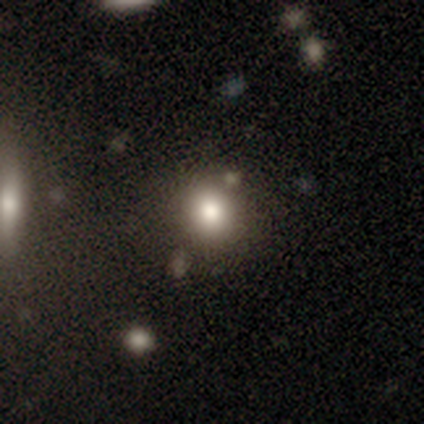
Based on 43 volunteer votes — A smooth galaxy with no disk features (72%) that is round (87%).

Vote fractions:
- Smooth or featured? smooth: 72% / featured or disk: 19% / star or artifact: 9%
- How rounded? round: 87% / in between: 13% / cigar-shaped: 0%
- Merging? none: 69% / minor disturbance: 15% / merger: 10% / major disturbance: 5%